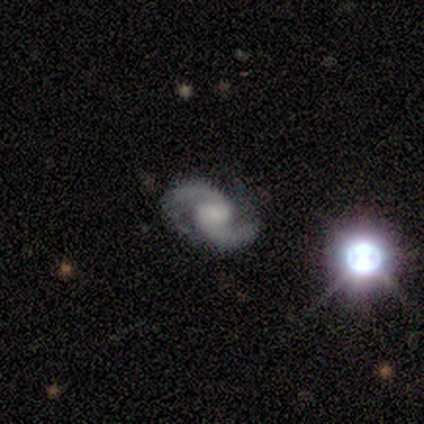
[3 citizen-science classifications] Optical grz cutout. It shows a featured or disk galaxy (67%) with a strong bar (50%, tied with weak), 2 (100%) medium (100%) spiral arms (100%) and a large central bulge (50%, tied with none). Merging: none (100%).